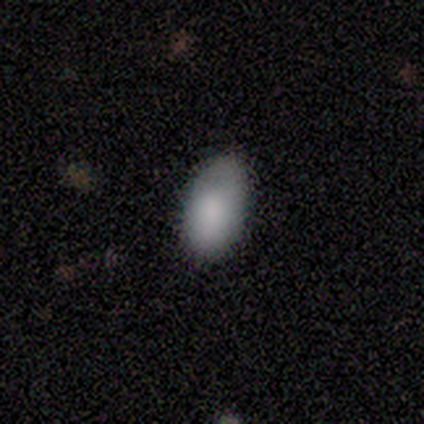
smooth-or-featured: smooth: 80% | featured or disk: 20% | star or artifact: 0%
  how-rounded: in between: 88% | round: 12% | cigar-shaped: 0%
  merging: none: 70% | minor disturbance: 30% | major disturbance: 0% | merger: 0%